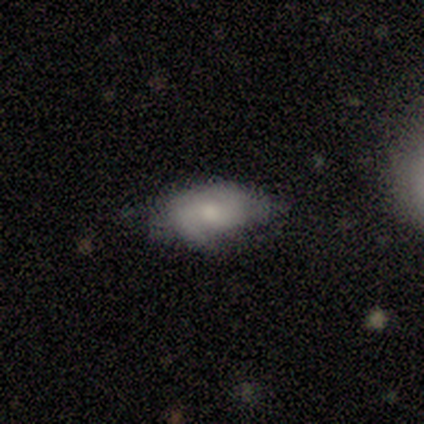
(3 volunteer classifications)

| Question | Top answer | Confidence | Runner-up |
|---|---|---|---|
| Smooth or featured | smooth | 67% | featured or disk (33%) |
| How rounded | in between | 100% | — |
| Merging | none | 67% | minor disturbance (33%) |